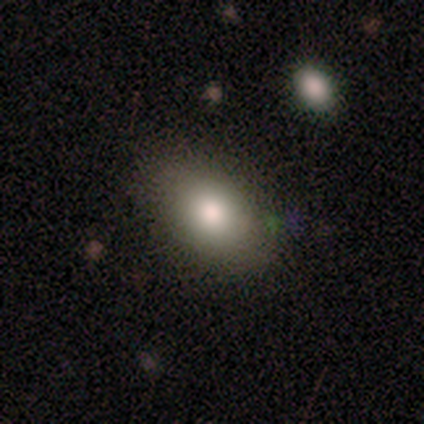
Morphology: type=smooth (100%); roundness=in between (80%); merging=none (80%).